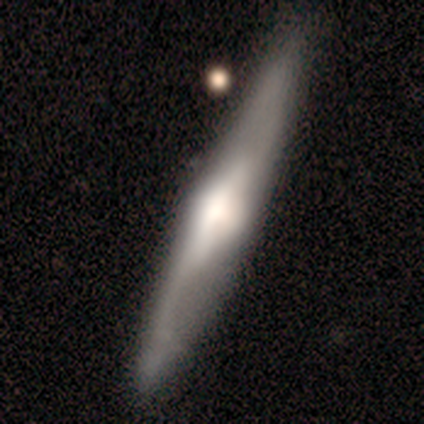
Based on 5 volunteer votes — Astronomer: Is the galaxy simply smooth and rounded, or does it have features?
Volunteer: featured or disk — 60% (runner-up: smooth, 40%).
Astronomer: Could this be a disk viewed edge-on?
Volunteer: yes — 67%.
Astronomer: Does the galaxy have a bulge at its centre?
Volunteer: rounded — 100%.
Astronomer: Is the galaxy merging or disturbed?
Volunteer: none — 60% (runner-up: minor disturbance, 40%).